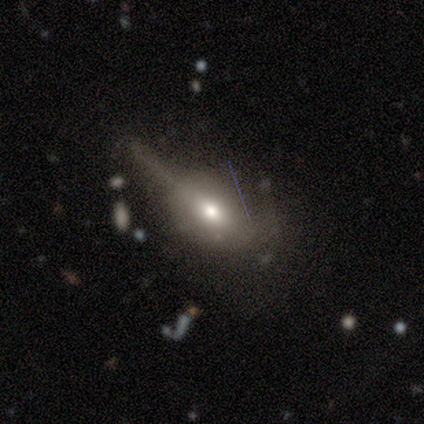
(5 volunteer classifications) Morphology: type=featured or disk (60%); edge-on=yes (67%); edge-on bulge=rounded (100%); merging=minor disturbance (100%).